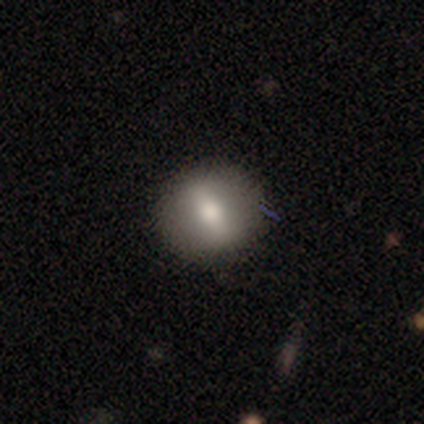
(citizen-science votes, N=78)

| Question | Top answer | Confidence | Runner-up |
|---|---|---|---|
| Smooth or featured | smooth | 62% | featured or disk (33%) |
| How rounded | round | 67% | in between (31%) |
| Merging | none | 91% | minor disturbance (8%) |